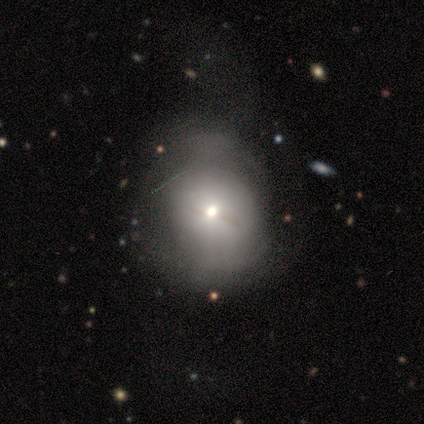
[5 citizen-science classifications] smooth-or-featured: smooth: 60% | featured or disk: 20% | star or artifact: 20%
  how-rounded: round: 100% | in between: 0% | cigar-shaped: 0%
  merging: major disturbance: 50% | minor disturbance: 25% | merger: 25% | none: 0%